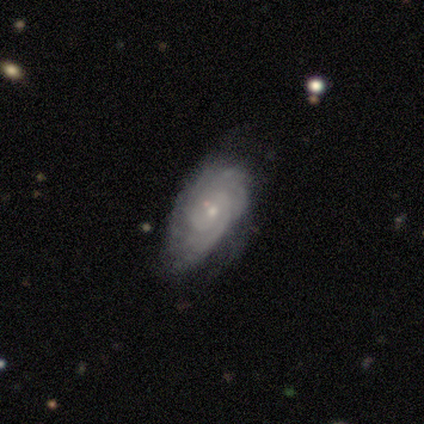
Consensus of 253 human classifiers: smooth-or-featured: featured or disk: 66% | smooth: 28% | star or artifact: 6%
  disk-edge-on: no: 95% | yes: 5%
    bar: no: 75% | weak: 18% | strong: 6%
    has-spiral-arms: yes: 87% | no: 13%
      spiral-winding: tight: 73% | medium: 20% | loose: 7%
      spiral-arm-count: can't tell: 47% | 2: 20% | 3: 15% | more than 4: 7% | 4: 6% | 1: 5%
    bulge-size: small: 80% | moderate: 18% | dominant: 1% | large: 1% | none: 1%
  merging: none: 58% | minor disturbance: 34% | major disturbance: 6% | merger: 2%